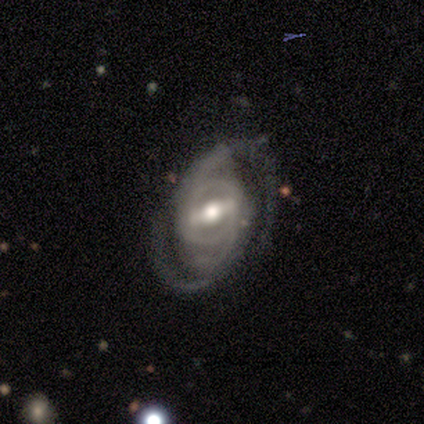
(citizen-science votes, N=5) This appears to be a featured or disk galaxy (100%) with a strong bar (100%), 2 (100%) medium (60%) spiral arms (100%) and a moderate central bulge (80%). Merging: minor disturbance (60%).